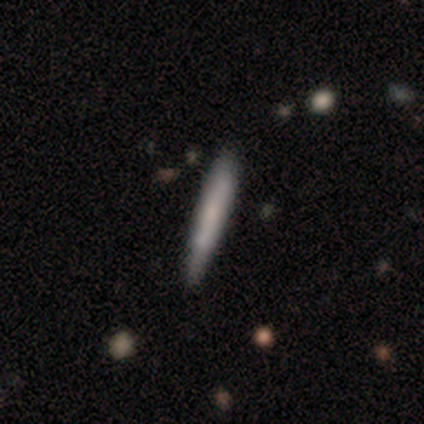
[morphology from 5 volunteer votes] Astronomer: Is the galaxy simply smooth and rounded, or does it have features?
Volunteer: smooth — 60% (runner-up: featured or disk, 40%).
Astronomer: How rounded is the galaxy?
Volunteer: cigar-shaped — 67%.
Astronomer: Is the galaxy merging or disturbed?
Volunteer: none — 100%.